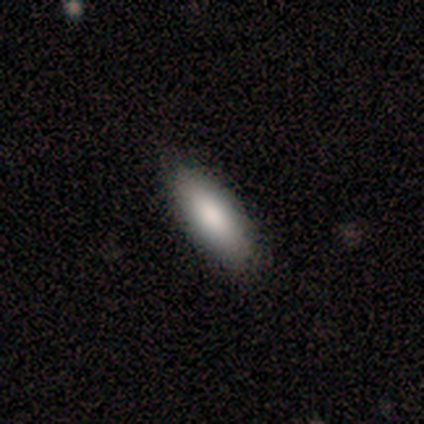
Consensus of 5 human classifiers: A smooth galaxy with no disk features (100%) that is in between round and cigar-shaped (80%).

Vote fractions:
- Smooth or featured? smooth: 100% / featured or disk: 0% / star or artifact: 0%
- How rounded? in between: 80% / cigar-shaped: 20% / round: 0%
- Merging? none: 100% / minor disturbance: 0% / major disturbance: 0% / merger: 0%